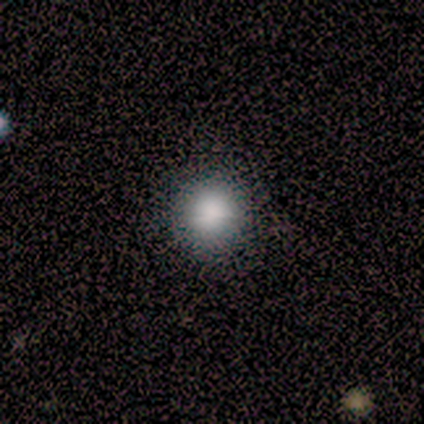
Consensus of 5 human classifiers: This is clearly a smooth galaxy (80%). How rounded: likely round (75%). Merging: clearly none (100%).